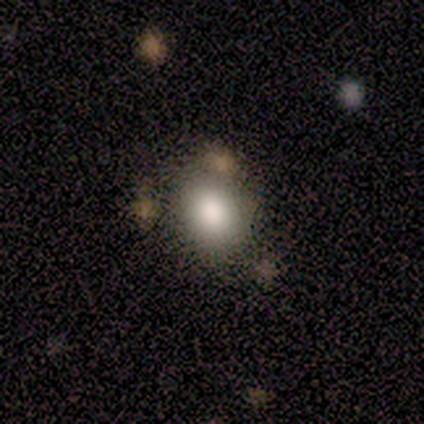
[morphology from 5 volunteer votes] A smooth galaxy with no disk features (80%) that is round (100%).

Vote fractions:
- Smooth or featured? smooth: 80% / featured or disk: 20% / star or artifact: 0%
- How rounded? round: 100% / in between: 0% / cigar-shaped: 0%
- Merging? none: 60% / merger: 40% / minor disturbance: 0% / major disturbance: 0%